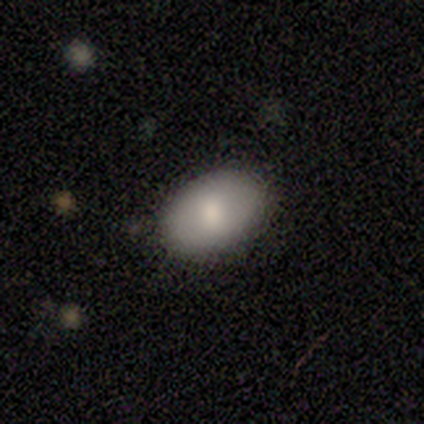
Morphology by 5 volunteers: This appears to be a smooth galaxy with no disk features (80%) that is in between round and cigar-shaped (100%). Merging: none (75%).